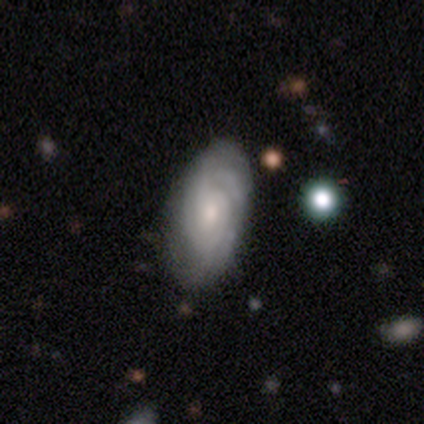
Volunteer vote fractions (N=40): smooth-or-featured: featured or disk: 78% | smooth: 18% | star or artifact: 5%
  disk-edge-on: no: 90% | yes: 10%
    bar: no: 50% | weak: 46% | strong: 4%
    has-spiral-arms: yes: 100% | no: 0%
      spiral-winding: tight: 71% | medium: 29% | loose: 0%
      spiral-arm-count: can't tell: 50% | 2: 21% | 4: 14% | 3: 7% | 1: 4% | more than 4: 4%
    bulge-size: small: 43% | moderate: 39% | none: 11% | large: 7% | dominant: 0%
  merging: none: 74% | minor disturbance: 21% | major disturbance: 5% | merger: 0%